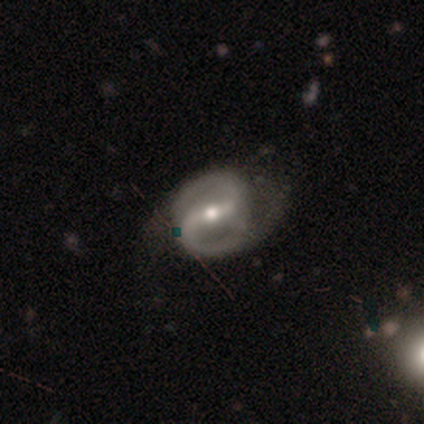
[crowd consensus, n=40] featured or disk 90%, smooth 10%, star or artifact 0%. Down the decision tree: edge-on disk — no (94%); bar — strong (53%); spiral arms — yes (94%); spiral arm count — 2 (97%); spiral winding — medium (59%); bulge size — moderate (74%); merging — none (38%).